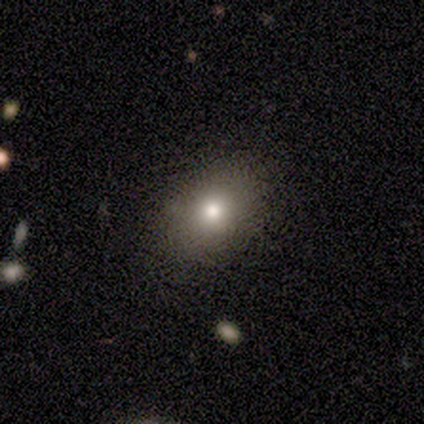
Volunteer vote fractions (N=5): Smooth or featured?
  - smooth: 100% *
  - featured or disk: 0%
  - star or artifact: 0%
How rounded?
  - in between: 80% *
  - round: 20%
  - cigar-shaped: 0%
Merging?
  - none: 80% *
  - minor disturbance: 20%
  - major disturbance: 0%
  - merger: 0%